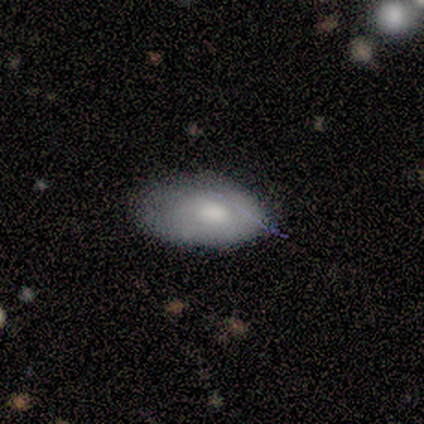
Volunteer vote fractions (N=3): A smooth galaxy with no disk features (100%) that is in between round and cigar-shaped (67%).

Vote fractions:
- Smooth or featured? smooth: 100% / featured or disk: 0% / star or artifact: 0%
- How rounded? in between: 67% / cigar-shaped: 33% / round: 0%
- Merging? none: 67% / minor disturbance: 33% / major disturbance: 0% / merger: 0%